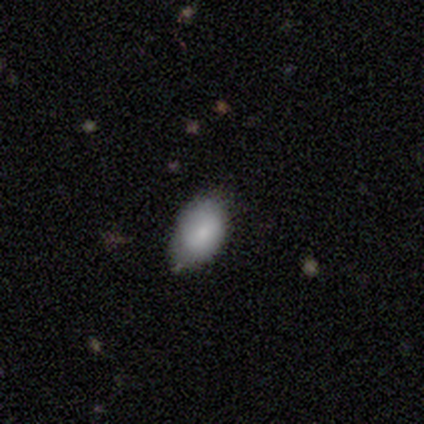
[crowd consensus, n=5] Smooth or featured?
  - smooth: 100% *
  - featured or disk: 0%
  - star or artifact: 0%
How rounded?
  - in between: 100% *
  - round: 0%
  - cigar-shaped: 0%
Merging?
  - none: 100% *
  - minor disturbance: 0%
  - major disturbance: 0%
  - merger: 0%